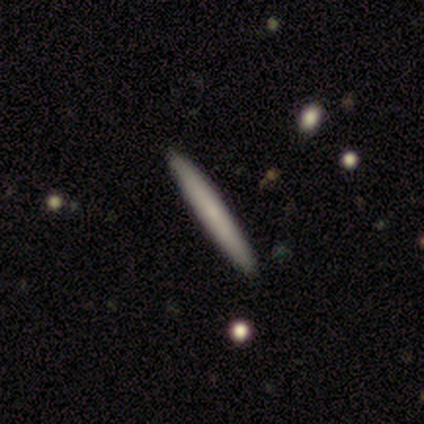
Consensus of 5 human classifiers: smooth-or-featured: smooth: 60% | featured or disk: 40% | star or artifact: 0%
  how-rounded: cigar-shaped: 100% | round: 0% | in between: 0%
  merging: none: 100% | minor disturbance: 0% | major disturbance: 0% | merger: 0%